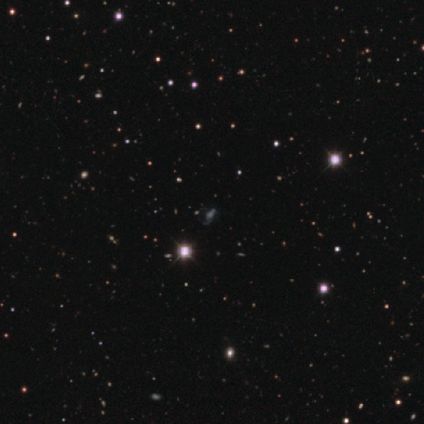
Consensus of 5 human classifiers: smooth_or_featured: star or artifact (p=0.60) [alt: smooth p=0.40]